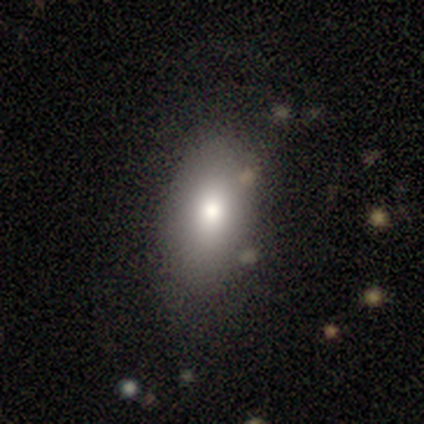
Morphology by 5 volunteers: This appears to be a smooth galaxy with no disk features (80%) that is in between round and cigar-shaped (75%). Merging: none (50%, tied with minor disturbance).